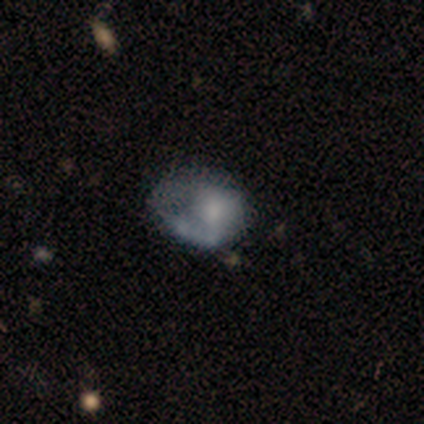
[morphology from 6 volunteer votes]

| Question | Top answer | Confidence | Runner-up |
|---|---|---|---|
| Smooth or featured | smooth | 50% | tied: featured or disk (50%) |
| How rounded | round | 67% | in between (33%) |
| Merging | none | 50% | major disturbance (33%) |